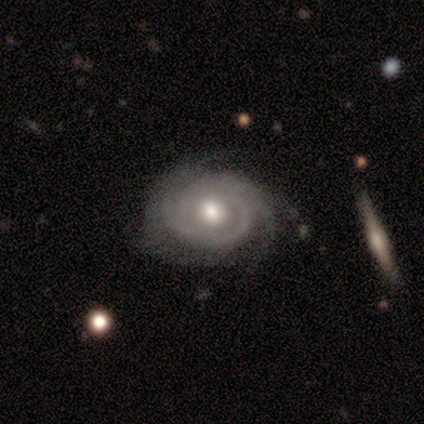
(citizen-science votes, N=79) Smooth or featured? 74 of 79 (94%) said featured or disk. Edge-on disk? 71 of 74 (96%) said no. Bar? 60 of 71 (85%) said no. Spiral arms? 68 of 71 (96%) said yes. Spiral winding? 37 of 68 (54%) said tight. Spiral arm count? 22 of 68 (32%) said can't tell. Bulge size? 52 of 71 (73%) said moderate. Merging? 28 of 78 (36%) said none.